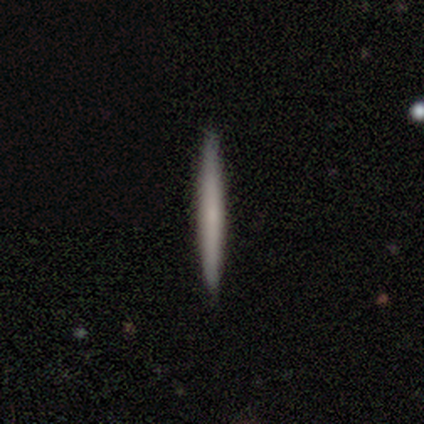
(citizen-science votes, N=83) Q: Smooth or featured?
A: smooth (63%); runner-up: featured or disk (34%)
Q: How rounded?
A: cigar-shaped (100%)
Q: Merging?
A: none (96%); runner-up: minor disturbance (4%)